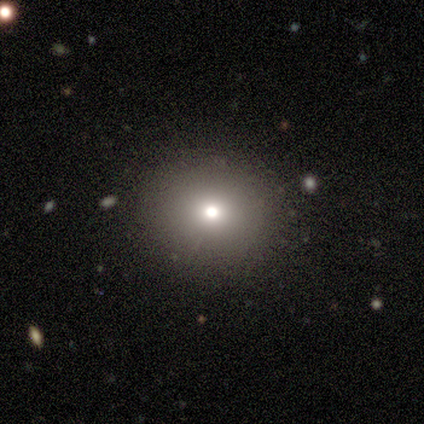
Volunteers were most divided on "smooth or featured": smooth: 44%, star or artifact: 36%, featured or disk: 21%. More confident: merging — none (96%); how rounded — round (82%).